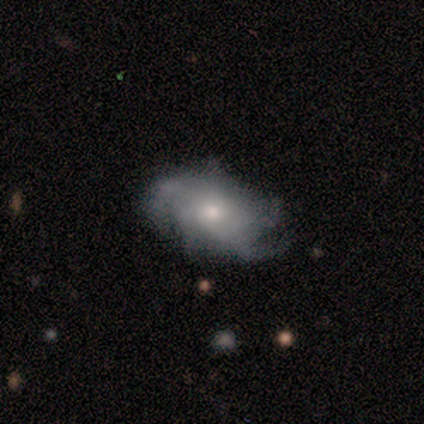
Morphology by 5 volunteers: Overall: featured or disk (60%; smooth 40%). Edge-on disk: no (100%). Bar: no (100%). Spiral arms: yes (100%). Spiral arm count: can't tell (67%; more than 4 33%). Spiral winding: tight (33%, tied with medium and loose). Bulge size: small (67%; moderate 33%). Merging: none (100%).